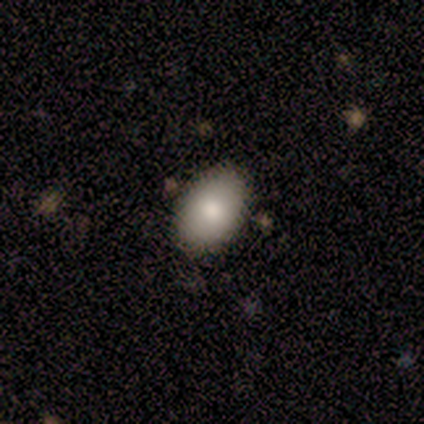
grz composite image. It shows a smooth galaxy with no disk features (75%) that is in between round and cigar-shaped (100%). Merging: none (100%).